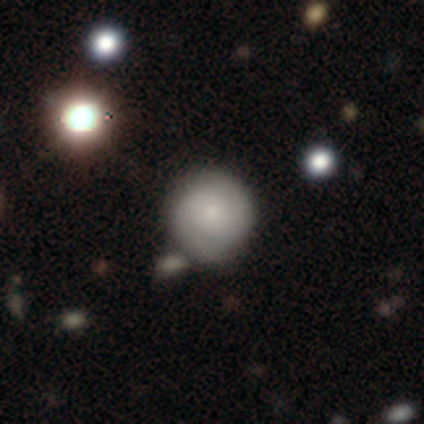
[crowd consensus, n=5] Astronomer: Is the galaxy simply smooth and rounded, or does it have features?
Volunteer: smooth — 60% (runner-up: featured or disk, 40%).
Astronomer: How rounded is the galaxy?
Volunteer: round — 100%.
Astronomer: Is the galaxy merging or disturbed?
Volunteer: none — 60% (runner-up: minor disturbance, 40%).